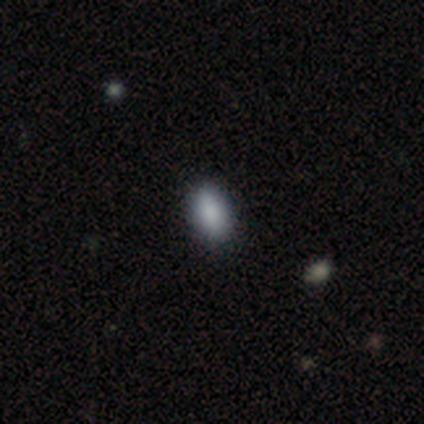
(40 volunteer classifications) Volunteers were most divided on "smooth or featured": smooth: 90%, star or artifact: 10%, featured or disk: 0%. More confident: merging — none (97%); how rounded — in between (92%).